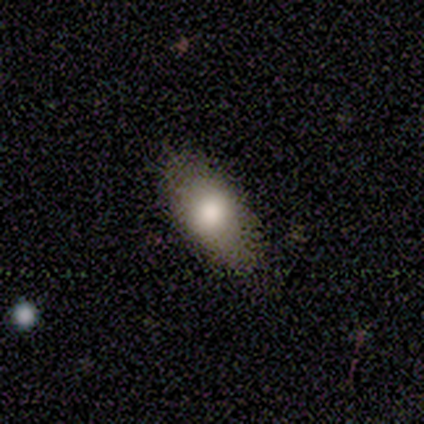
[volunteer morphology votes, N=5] Volunteers were most divided on "smooth or featured": smooth: 60%, featured or disk: 40%, star or artifact: 0%. More confident: merging — none (100%); how rounded — in between (67%).